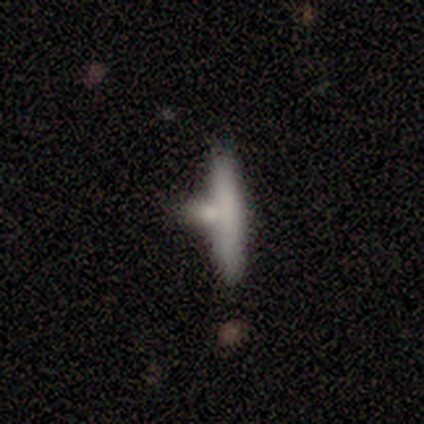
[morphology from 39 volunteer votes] Smooth or featured? smooth (64%)
How rounded? cigar-shaped (92%)
Merging? none (54%)